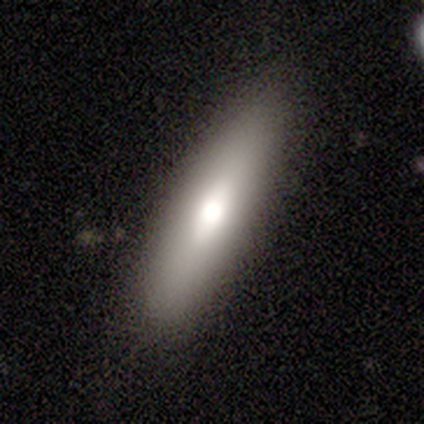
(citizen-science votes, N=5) Morphology: type=smooth (60%); roundness=cigar-shaped (67%); merging=none (100%).